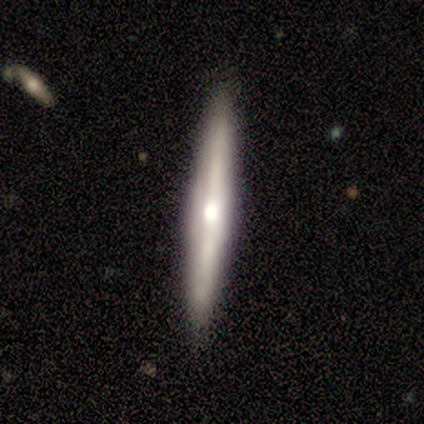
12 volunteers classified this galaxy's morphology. A featured or disk galaxy (67%) viewed edge-on (75%) with a rounded central bulge (67%). Merging: none (91%).